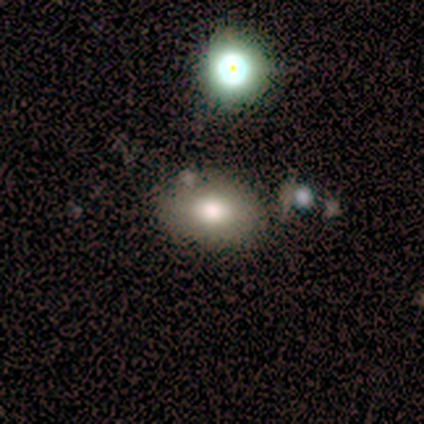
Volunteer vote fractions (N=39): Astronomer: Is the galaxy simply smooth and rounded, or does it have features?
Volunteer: smooth — 72%.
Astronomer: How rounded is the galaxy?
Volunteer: in between — 89%.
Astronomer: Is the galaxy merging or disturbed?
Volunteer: none — 58%.